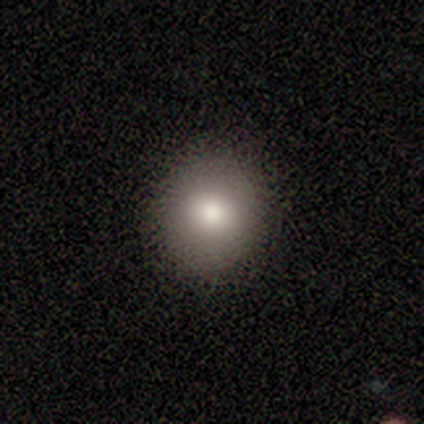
Smooth or featured: smooth — 82% (featured or disk — 10%)
How rounded: round — 84% (in between — 16%)
Merging: none — 92% (minor disturbance — 6%)